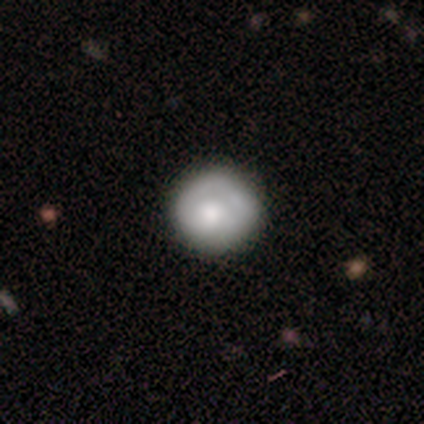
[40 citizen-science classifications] Overall: smooth (65%; featured or disk 28%). How rounded: round (92%). Merging: none (73%).